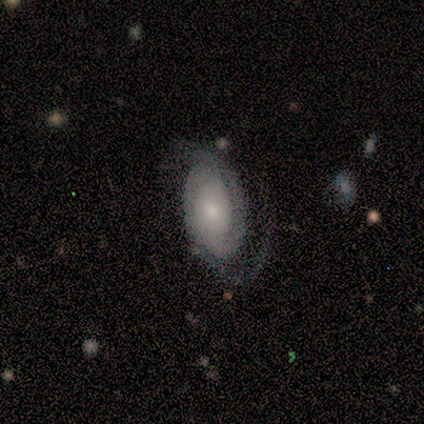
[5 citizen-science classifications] smooth-or-featured: featured or disk: 100% | smooth: 0% | star or artifact: 0%
  disk-edge-on: no: 100% | yes: 0%
    bar: no: 60% | weak: 40% | strong: 0%
    has-spiral-arms: yes: 100% | no: 0%
      spiral-winding: tight: 60% | medium: 40% | loose: 0%
      spiral-arm-count: 2: 80% | can't tell: 20% | 1: 0% | 3: 0% | 4: 0% | more than 4: 0%
    bulge-size: small: 80% | moderate: 20% | dominant: 0% | large: 0% | none: 0%
  merging: none: 100% | minor disturbance: 0% | major disturbance: 0% | merger: 0%